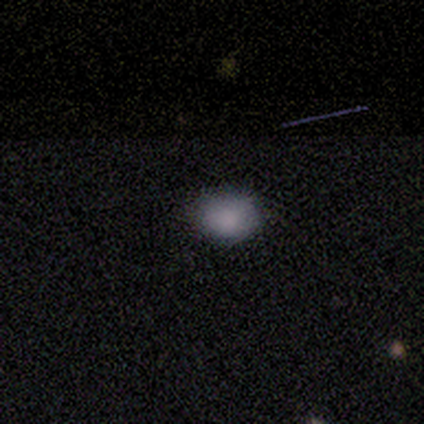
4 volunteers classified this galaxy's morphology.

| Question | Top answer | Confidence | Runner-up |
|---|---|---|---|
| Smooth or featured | smooth | 75% | featured or disk (25%) |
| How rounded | round | 67% | in between (33%) |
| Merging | none | 75% | major disturbance (25%) |